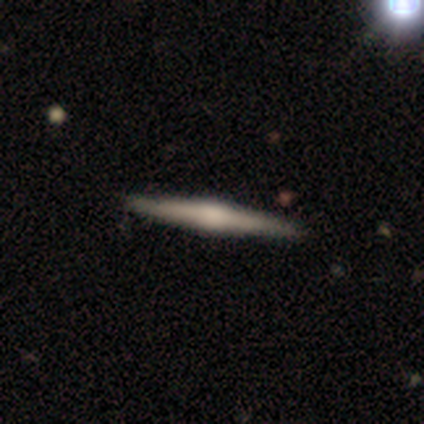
smooth-or-featured: featured or disk: 75% | smooth: 25% | star or artifact: 0%
  disk-edge-on: yes: 100% | no: 0%
    edge-on-bulge: rounded: 100% | boxy: 0% | none: 0%
  merging: none: 100% | minor disturbance: 0% | major disturbance: 0% | merger: 0%